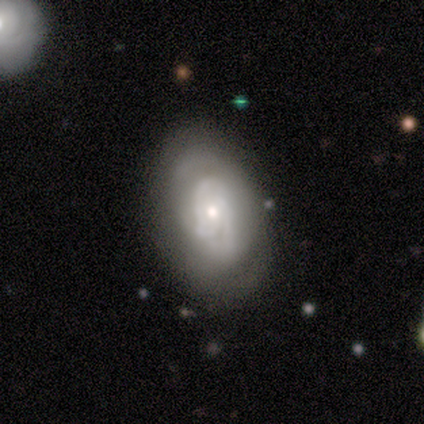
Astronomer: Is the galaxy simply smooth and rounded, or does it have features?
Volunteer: smooth — 80%.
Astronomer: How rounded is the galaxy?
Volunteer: in between — 100%.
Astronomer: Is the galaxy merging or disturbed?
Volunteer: none — 80%.